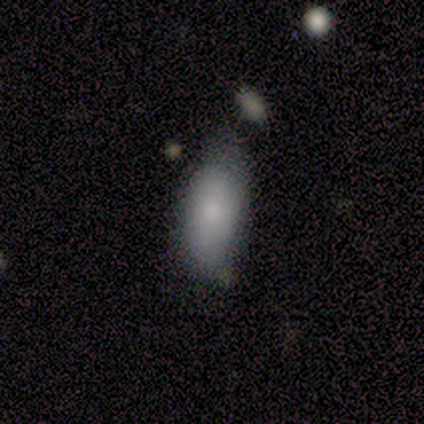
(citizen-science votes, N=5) smooth-or-featured: smooth: 100% | featured or disk: 0% | star or artifact: 0%
  how-rounded: in between: 100% | round: 0% | cigar-shaped: 0%
  merging: none: 40% (tied) | minor disturbance: 40% (tied) | merger: 20% | major disturbance: 0%